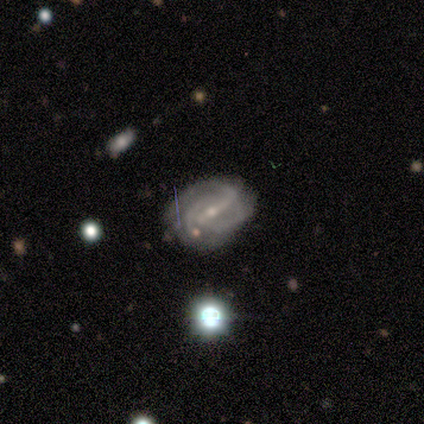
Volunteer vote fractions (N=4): Smooth or featured? 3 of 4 (75%) said featured or disk. Edge-on disk? 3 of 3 (100%) said no. Bar? 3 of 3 (100%) said strong. Spiral arms? 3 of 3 (100%) said yes. Spiral winding? 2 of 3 (67%) said tight. Spiral arm count? 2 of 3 (67%) said 2. Bulge size? 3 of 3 (100%) said small. Merging? 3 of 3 (100%) said none.